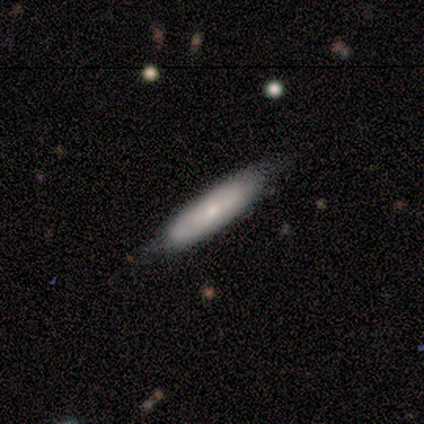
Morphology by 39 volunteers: Volunteers were most divided on "smooth or featured": smooth: 49%, featured or disk: 46%, star or artifact: 5%. More confident: merging — none (73%); how rounded — cigar-shaped (63%).